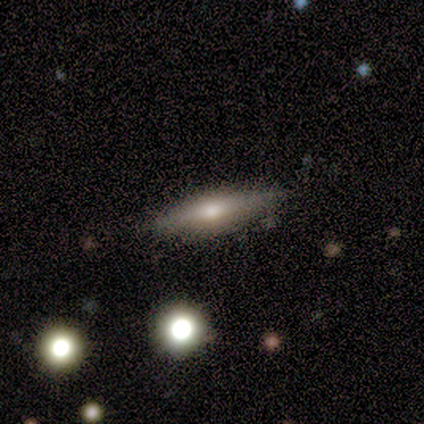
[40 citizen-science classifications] This appears to be a featured or disk galaxy (60%) viewed edge-on (88%) with a rounded central bulge (81%). Merging: none (79%).